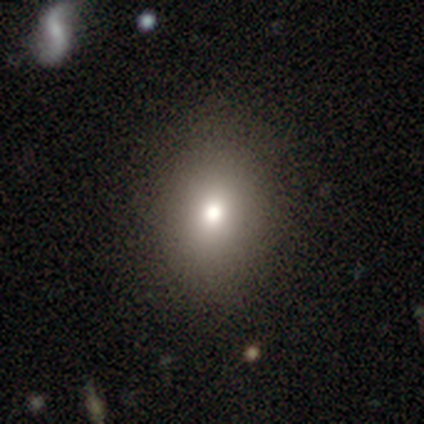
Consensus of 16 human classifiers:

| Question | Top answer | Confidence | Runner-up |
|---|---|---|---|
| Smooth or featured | smooth | 62% | featured or disk (19%) |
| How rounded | round | 50% | tied: in between (50%) |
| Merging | none | 100% | — |